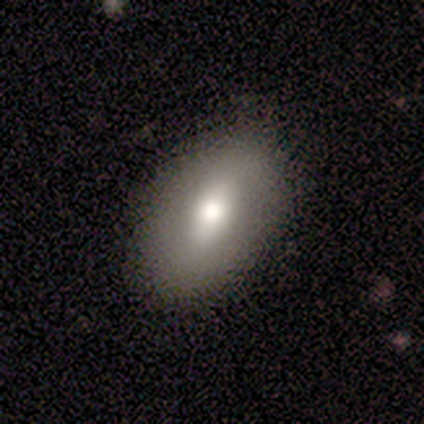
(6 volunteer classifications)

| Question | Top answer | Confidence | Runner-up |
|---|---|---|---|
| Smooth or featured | smooth | 83% | featured or disk (17%) |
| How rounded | in between | 100% | — |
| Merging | none | 100% | — |